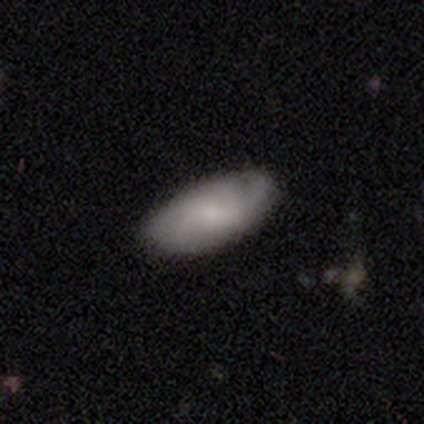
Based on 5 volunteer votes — Overall: smooth (60%; featured or disk 40%). How rounded: in between (100%). Merging: none (80%).